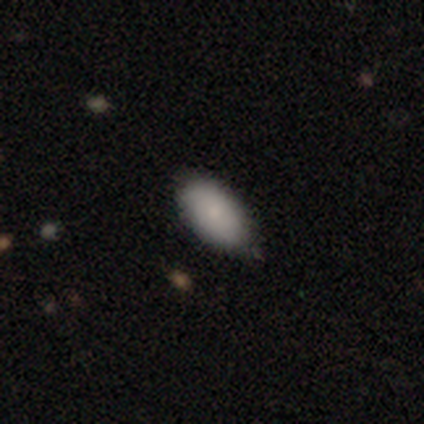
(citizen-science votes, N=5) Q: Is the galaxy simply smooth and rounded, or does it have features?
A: smooth — 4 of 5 (80%).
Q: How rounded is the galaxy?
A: in between — 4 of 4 (100%).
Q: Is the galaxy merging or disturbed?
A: none — 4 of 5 (80%).